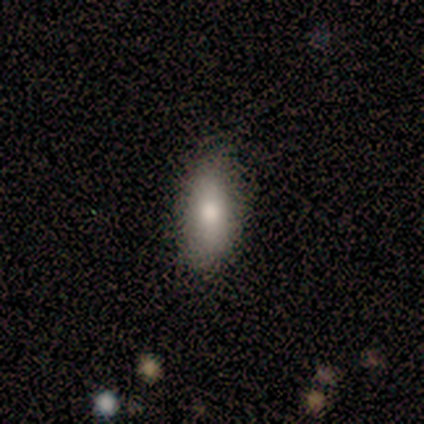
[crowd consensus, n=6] Overall: smooth (83%). How rounded: in between (80%). Merging: none (83%).